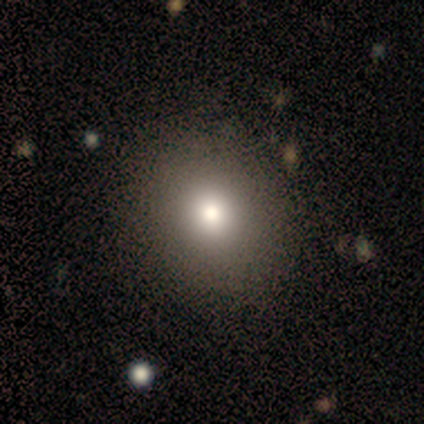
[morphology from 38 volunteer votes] Smooth or featured?
  - smooth: 76% *
  - featured or disk: 13%
  - star or artifact: 11%
How rounded?
  - round: 86% *
  - in between: 14%
  - cigar-shaped: 0%
Merging?
  - none: 91% *
  - major disturbance: 6%
  - minor disturbance: 3%
  - merger: 0%